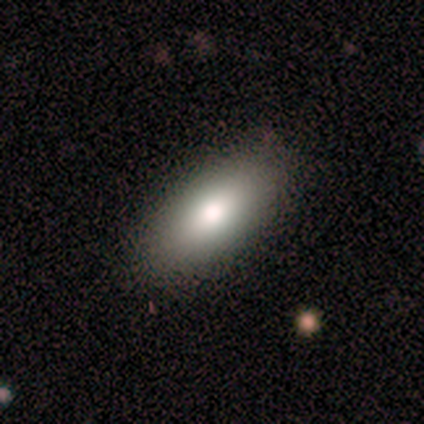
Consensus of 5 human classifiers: A smooth galaxy with no disk features (80%) that is in between round and cigar-shaped (100%). Merging: none (75%).